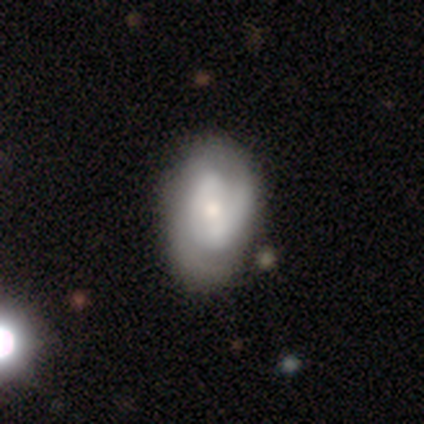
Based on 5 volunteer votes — Smooth or featured? 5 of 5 (100%) said featured or disk. Edge-on disk? 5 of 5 (100%) said no. Bar? 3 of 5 (60%) said no. Spiral arms? 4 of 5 (80%) said yes. Spiral winding? 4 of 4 (100%) said tight. Spiral arm count? 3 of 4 (75%) said 2. Bulge size? 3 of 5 (60%) said moderate. Merging? 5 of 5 (100%) said none.